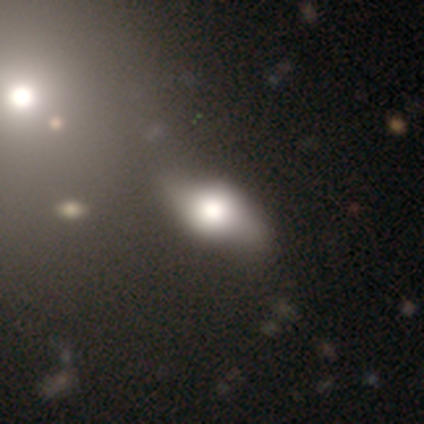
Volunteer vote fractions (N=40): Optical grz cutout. It shows a smooth galaxy with no disk features (60%) that is in between round and cigar-shaped (96%). Merging: none (56%).